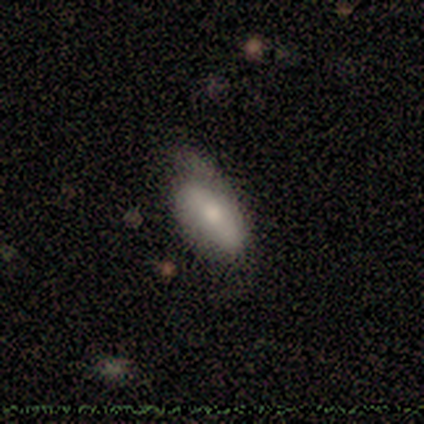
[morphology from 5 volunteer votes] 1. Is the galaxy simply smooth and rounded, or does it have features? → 60% smooth, 40% featured or disk, 0% star or artifact.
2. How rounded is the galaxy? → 100% in between, 0% round, 0% cigar-shaped.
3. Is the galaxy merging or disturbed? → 60% minor disturbance, 40% none, 0% major disturbance, 0% merger.